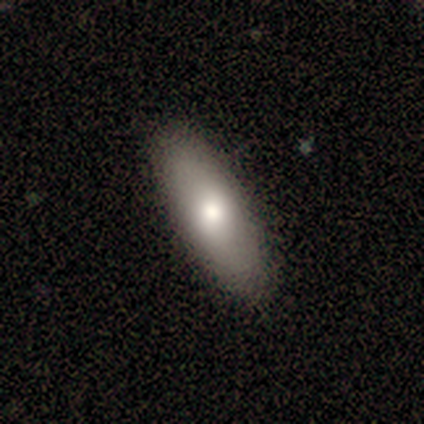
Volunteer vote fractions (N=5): Volunteers were most divided on "how rounded": cigar-shaped: 60%, in between: 40%, round: 0%. More confident: smooth or featured — smooth (100%); merging — none (60%).